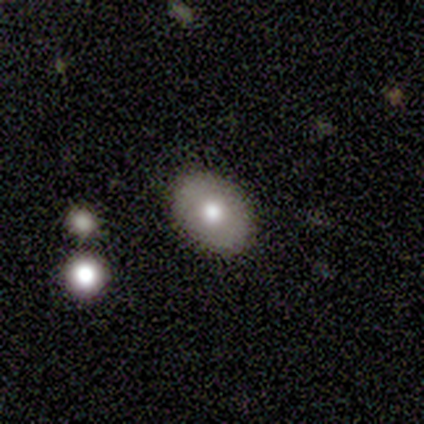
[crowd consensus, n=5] smooth-or-featured: smooth: 80% | featured or disk: 20% | star or artifact: 0%
  how-rounded: in between: 100% | round: 0% | cigar-shaped: 0%
  merging: none: 100% | minor disturbance: 0% | major disturbance: 0% | merger: 0%